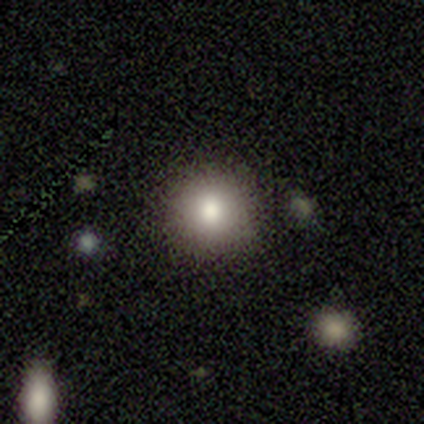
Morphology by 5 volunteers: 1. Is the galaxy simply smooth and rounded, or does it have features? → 80% smooth, 20% featured or disk, 0% star or artifact.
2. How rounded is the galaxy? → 100% round, 0% in between, 0% cigar-shaped.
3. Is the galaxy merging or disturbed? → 80% none, 20% merger, 0% minor disturbance, 0% major disturbance.